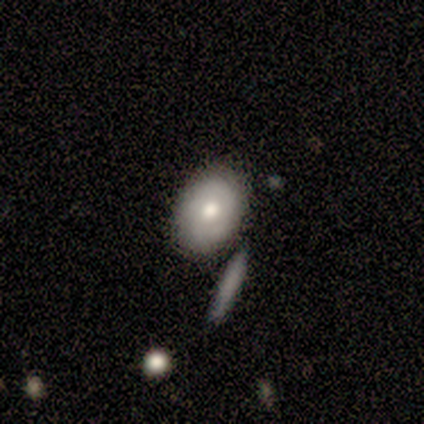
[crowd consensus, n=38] Volunteers were most divided on "smooth or featured": smooth: 55%, featured or disk: 39%, star or artifact: 5%. More confident: how rounded — in between (86%); merging — none (72%).